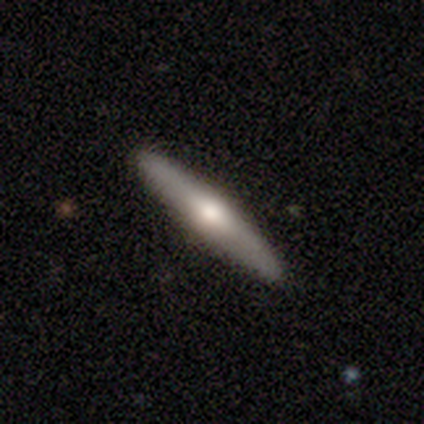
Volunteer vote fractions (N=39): This is possibly a featured or disk galaxy (59%). It is clearly viewed edge-on (83%). Edge-on bulge: clearly rounded (95%). Merging: clearly none (89%).